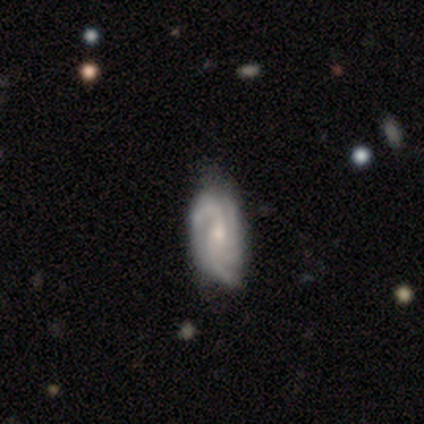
smooth-or-featured: featured or disk: 100% | smooth: 0% | star or artifact: 0%
  disk-edge-on: no: 100% | yes: 0%
    bar: weak: 60% | strong: 20% | no: 20%
    has-spiral-arms: yes: 100% | no: 0%
      spiral-winding: tight: 40% (tied) | medium: 40% (tied) | loose: 20%
      spiral-arm-count: 3: 60% | 2: 40% | 1: 0% | 4: 0% | more than 4: 0% | can't tell: 0%
    bulge-size: small: 60% | moderate: 40% | dominant: 0% | large: 0% | none: 0%
  merging: none: 60% | minor disturbance: 40% | major disturbance: 0% | merger: 0%